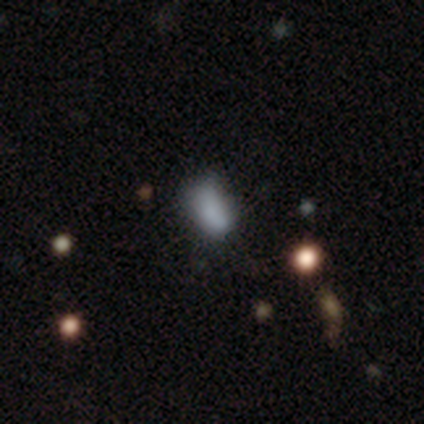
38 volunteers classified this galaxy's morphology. Smooth or featured: smooth — 79% (featured or disk — 13%)
How rounded: in between — 90% (round — 7%)
Merging: none — 57% (minor disturbance — 34%)